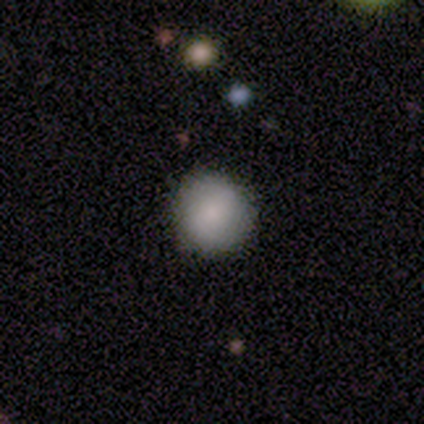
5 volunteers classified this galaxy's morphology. Smooth or featured?
  - smooth: 100% *
  - featured or disk: 0%
  - star or artifact: 0%
How rounded?
  - round: 80% *
  - in between: 20%
  - cigar-shaped: 0%
Merging?
  - none: 60% *
  - minor disturbance: 40%
  - major disturbance: 0%
  - merger: 0%